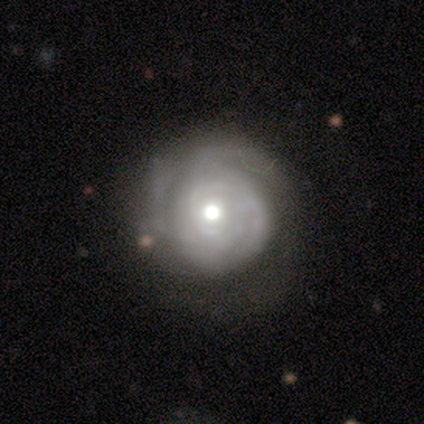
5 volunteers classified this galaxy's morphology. Smooth or featured: featured or disk — 80% (smooth — 20%)
Edge-on disk: no — 100%
Bar: no — 100%
Spiral arms: yes — 75% (no — 25%)
Spiral winding: tight — 67% (medium — 33%)
Spiral arm count: can't tell — 67% (1 — 33%)
Bulge size: moderate — 100%
Merging: minor disturbance — 60% (none — 40%)